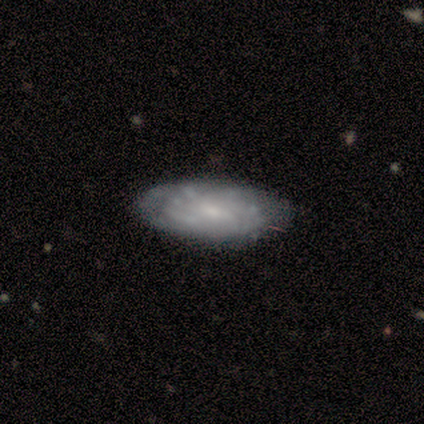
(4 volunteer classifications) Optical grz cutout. It shows a featured or disk galaxy (75%) with no bar (67%), no spiral arms (67%) and no central bulge (67%). Merging: none (100%).